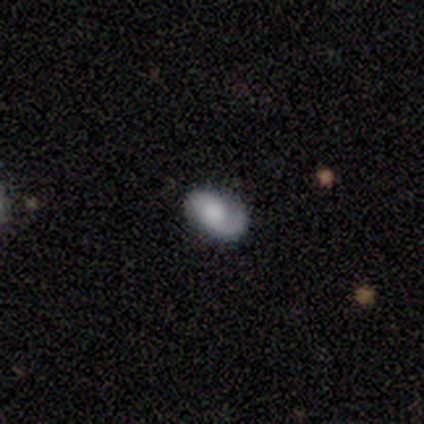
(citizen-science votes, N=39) smooth-or-featured: smooth: 54% | featured or disk: 41% | star or artifact: 5%
  how-rounded: in between: 86% | round: 14% | cigar-shaped: 0%
  merging: none: 76% | minor disturbance: 11% | major disturbance: 8% | merger: 5%